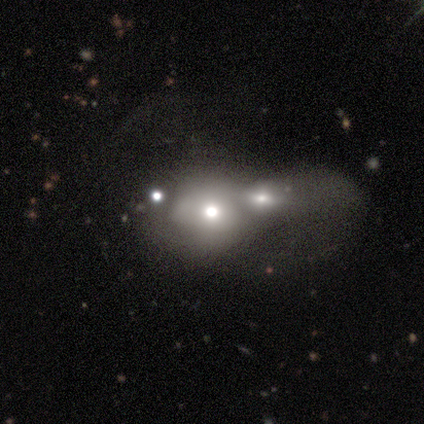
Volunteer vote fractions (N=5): This appears to be a smooth galaxy with no disk features (80%) that is round (50%, tied with in between). Merging: merger (80%).